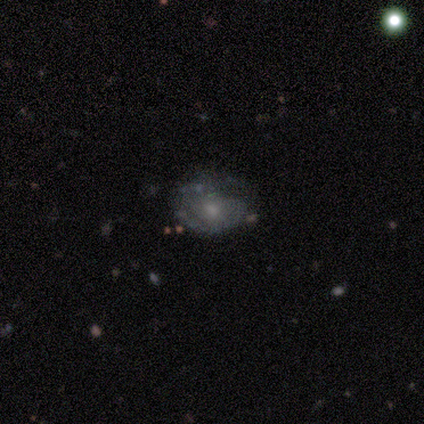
Smooth or featured: star or artifact — 60% (featured or disk — 40%)